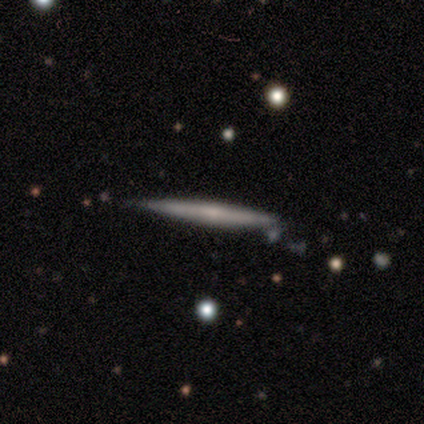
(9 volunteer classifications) Morphology: type=featured or disk (78%); edge-on=yes (100%); edge-on bulge=none (57%); merging=none (78%).